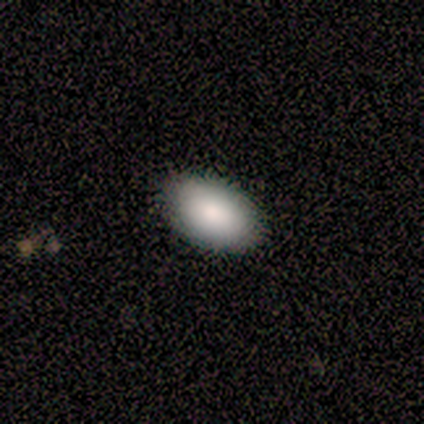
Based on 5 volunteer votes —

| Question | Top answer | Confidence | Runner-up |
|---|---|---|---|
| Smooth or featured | smooth | 80% | featured or disk (20%) |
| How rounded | in between | 75% | round (25%) |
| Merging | none | 100% | — |